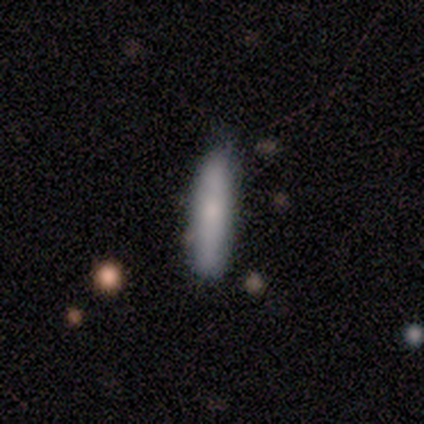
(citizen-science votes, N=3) Smooth or featured? 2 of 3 (67%) said smooth. How rounded? 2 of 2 (100%) said cigar-shaped. Merging? 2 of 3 (67%) said none.